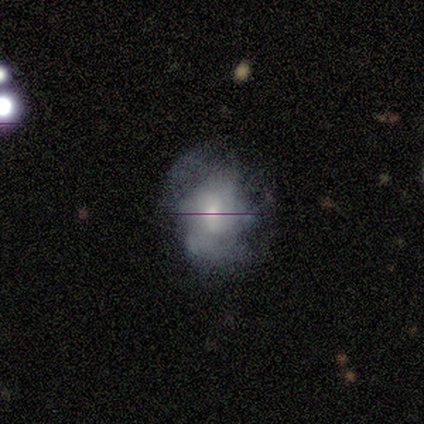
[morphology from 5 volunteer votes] A featured or disk galaxy (80%) with a weak bar (50%, tied with no), 4 (67%) tight (67%) spiral arms (75%) and a moderate central bulge (50%, tied with small).

Vote fractions:
- Smooth or featured? featured or disk: 80% / smooth: 20% / star or artifact: 0%
- Edge-on disk? no: 100% / yes: 0%
- Bar? weak: 50% (tied) / no: 50% (tied) / strong: 0%
- Spiral arms? yes: 75% / no: 25%
- Spiral winding? tight: 67% / medium: 33% / loose: 0%
- Spiral arm count? 4: 67% / 3: 33% / 1: 0% / 2: 0% / more than 4: 0% / can't tell: 0%
- Bulge size? moderate: 50% (tied) / small: 50% (tied) / dominant: 0% / large: 0% / none: 0%
- Merging? none: 40% (tied) / minor disturbance: 40% (tied) / major disturbance: 20% / merger: 0%